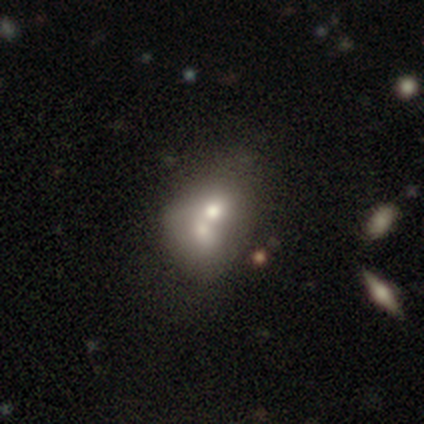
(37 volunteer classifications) This appears to be a smooth galaxy with no disk features (62%) that is round (48%, tied with in between). Merging: merger (81%).